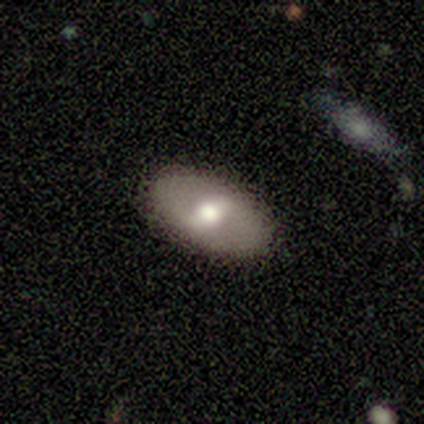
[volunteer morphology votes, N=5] A featured or disk galaxy (60%) with a weak bar (100%), no spiral arms (67%) and a moderate central bulge (100%).

Vote fractions:
- Smooth or featured? featured or disk: 60% / smooth: 40% / star or artifact: 0%
- Edge-on disk? no: 100% / yes: 0%
- Bar? weak: 100% / strong: 0% / no: 0%
- Spiral arms? no: 67% / yes: 33%
- Bulge size? moderate: 100% / dominant: 0% / large: 0% / small: 0% / none: 0%
- Merging? none: 80% / minor disturbance: 20% / major disturbance: 0% / merger: 0%